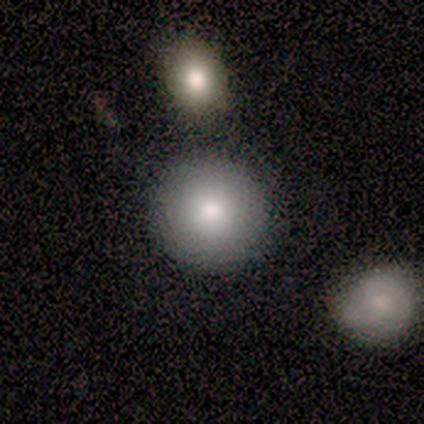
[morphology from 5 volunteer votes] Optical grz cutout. It shows a smooth galaxy with no disk features (100%) that is round (100%). Merging: none (100%).